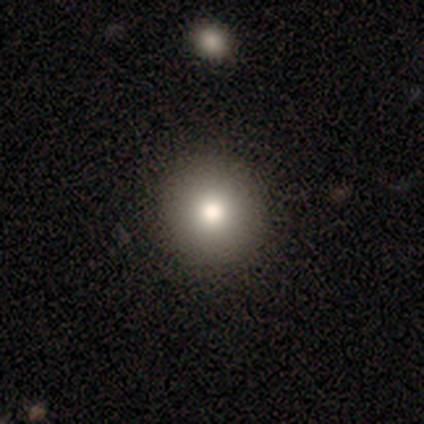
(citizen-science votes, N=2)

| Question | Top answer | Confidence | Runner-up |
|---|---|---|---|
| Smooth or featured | smooth | 50% | tied: star or artifact (50%) |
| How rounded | round | 100% | — |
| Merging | none | 100% | — |